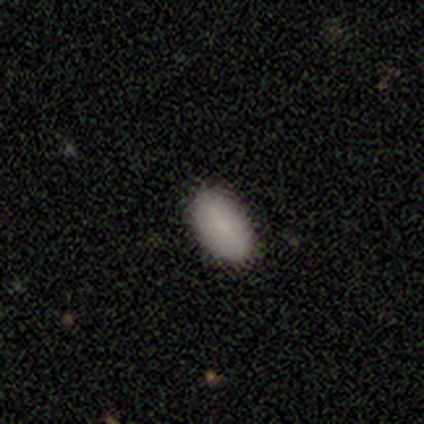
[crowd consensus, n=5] Smooth or featured? smooth (80%)
How rounded? in between (100%)
Merging? none (100%)